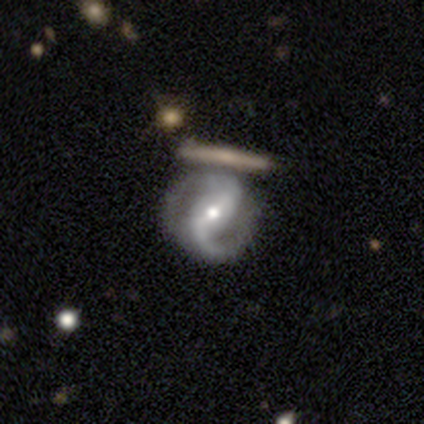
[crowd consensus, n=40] Smooth or featured? 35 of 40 (88%) said featured or disk. Edge-on disk? 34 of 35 (97%) said no. Bar? 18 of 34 (53%) said weak. Spiral arms? 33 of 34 (97%) said yes. Spiral winding? 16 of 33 (48%) said medium. Spiral arm count? 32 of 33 (97%) said 2. Bulge size? 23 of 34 (68%) said moderate. Merging? 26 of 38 (68%) said none.